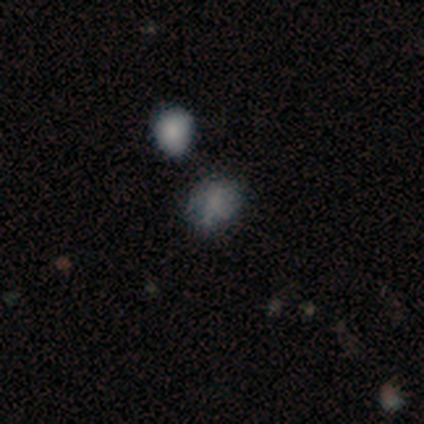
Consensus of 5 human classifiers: Overall: smooth (80%). How rounded: round (100%). Merging: none (40%, tied with merger).